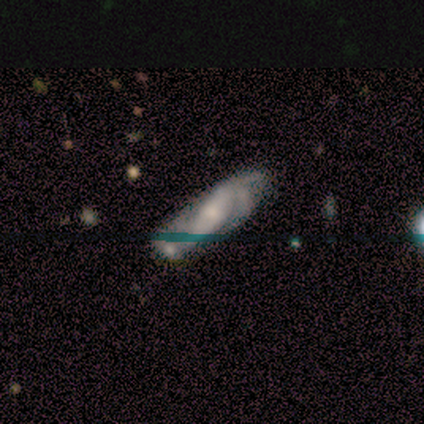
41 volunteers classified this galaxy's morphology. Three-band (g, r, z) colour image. It shows a featured or disk galaxy (88%) with a strong bar (45%), 2 (30%, tied with 3) medium (73%) spiral arms (97%) and a moderate central bulge (45%). Merging: none (69%).